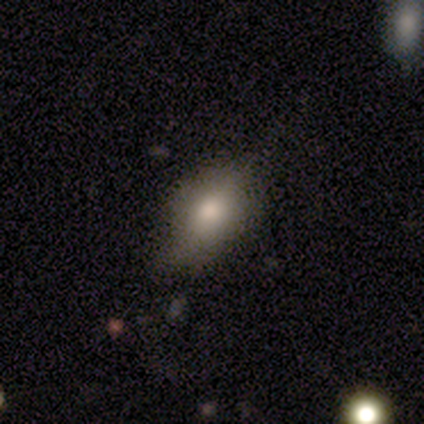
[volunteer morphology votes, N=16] smooth-or-featured: smooth: 69% | featured or disk: 19% | star or artifact: 12%
  how-rounded: in between: 91% | cigar-shaped: 9% | round: 0%
  merging: none: 71% | minor disturbance: 29% | major disturbance: 0% | merger: 0%